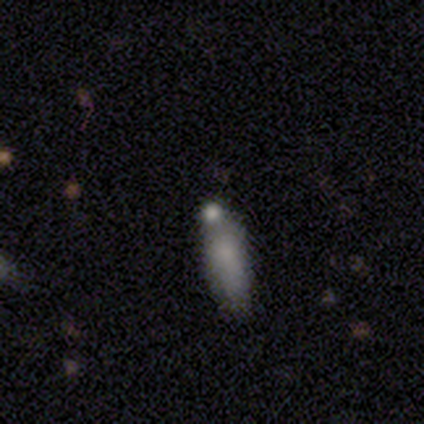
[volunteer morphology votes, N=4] This appears to be a smooth galaxy with no disk features (75%) that is in between round and cigar-shaped (67%). Merging: none (50%).